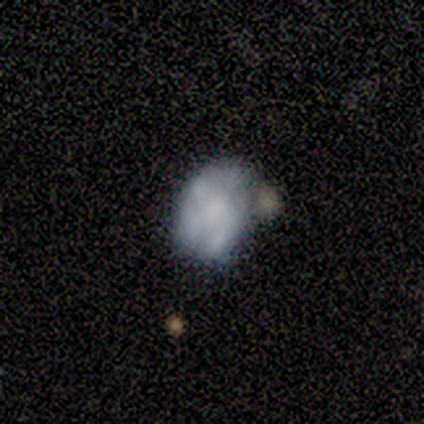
Smooth or featured? 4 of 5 (80%) said featured or disk. Edge-on disk? 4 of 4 (100%) said no. Bar? 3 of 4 (75%) said no. Spiral arms? 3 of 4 (75%) said no. Bulge size? 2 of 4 (50%, tied with none) said dominant. Merging? 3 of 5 (60%) said none.